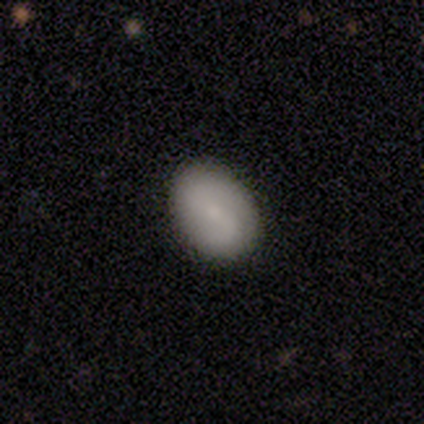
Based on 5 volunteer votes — Smooth or featured? 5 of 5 (100%) said smooth. How rounded? 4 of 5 (80%) said in between. Merging? 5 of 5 (100%) said none.